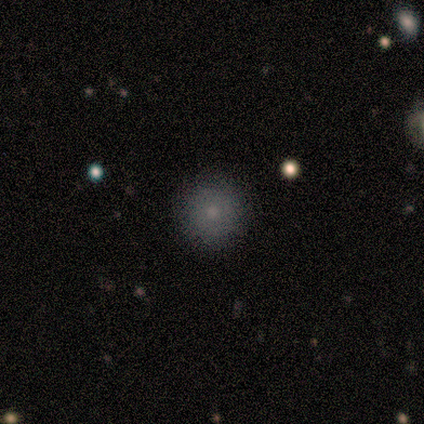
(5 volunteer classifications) Smooth or featured: smooth — 100%
How rounded: round — 100%
Merging: none — 80% (minor disturbance — 20%)